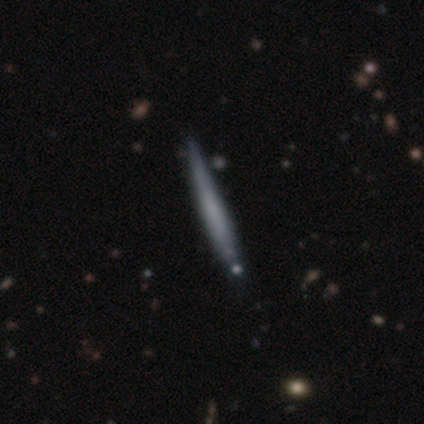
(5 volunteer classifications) Volunteers were most divided on "smooth or featured": smooth: 60%, featured or disk: 40%, star or artifact: 0%. More confident: how rounded — cigar-shaped (100%); merging — none (80%).